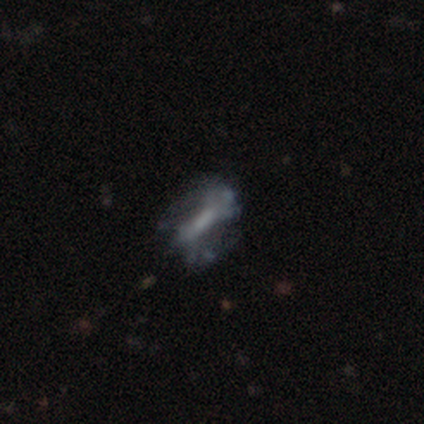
featured or disk 60%, smooth 40%, star or artifact 0%. Down the decision tree: edge-on disk — no (67%); bar — strong (50%, tied with no); spiral arms — yes (50%, tied with no); spiral arm count — can't tell (100%); spiral winding — loose (100%); bulge size — moderate (50%, tied with small); merging — major disturbance (60%).